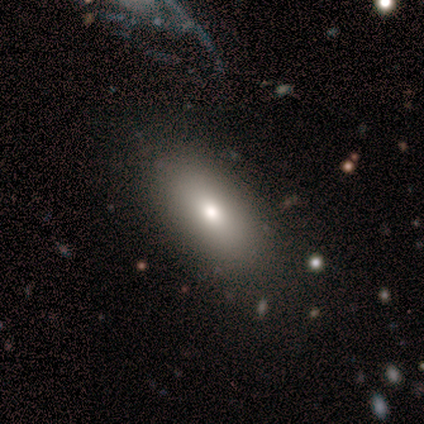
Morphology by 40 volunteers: Smooth or featured? smooth (75%)
How rounded? in between (87%)
Merging? none (94%)